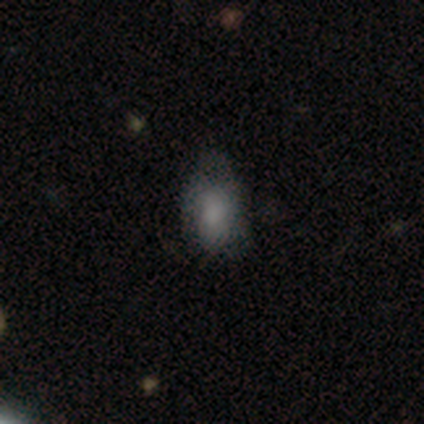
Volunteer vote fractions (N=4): Volunteers were most divided on "merging": minor disturbance: 50%, none: 25%, major disturbance: 25%, merger: 0%. More confident: smooth or featured — smooth (100%); how rounded — in between (75%).